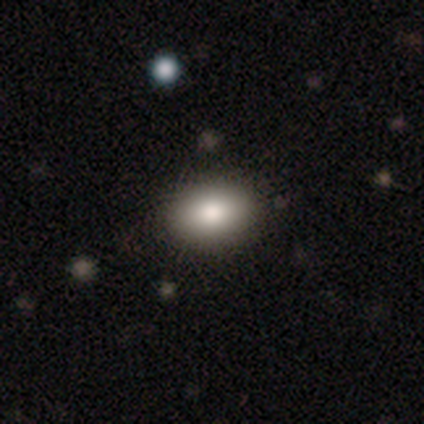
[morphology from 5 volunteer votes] Consensus on every question: smooth or featured — smooth (100%); how rounded — in between (100%); merging — none (100%).